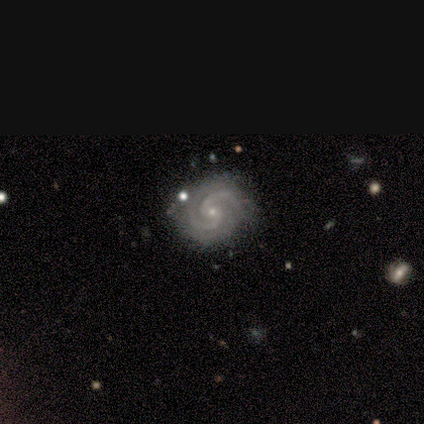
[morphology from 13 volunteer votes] This is clearly a featured or disk galaxy (92%). It is clearly not viewed edge-on (100%). Bar: possibly no (58%). Spiral arm pattern: clearly yes (92%). Spiral arm count: clearly 2 (91%). Spiral winding: likely tight (64%). Central bulge: clearly small (100%). Merging: possibly none (50%).